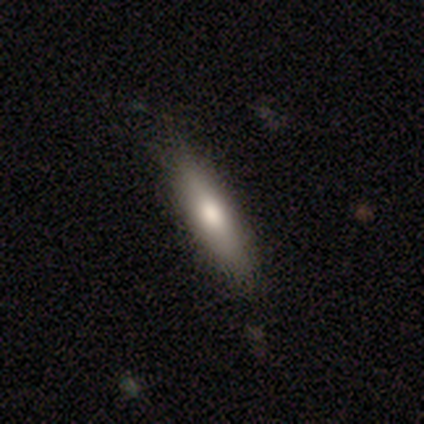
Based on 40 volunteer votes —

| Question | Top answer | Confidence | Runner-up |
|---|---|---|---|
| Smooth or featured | smooth | 78% | featured or disk (20%) |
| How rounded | cigar-shaped | 77% | in between (23%) |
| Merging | none | 90% | minor disturbance (8%) |